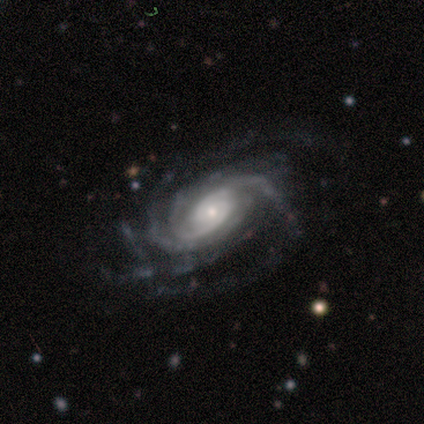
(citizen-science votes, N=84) Smooth or featured?
  - featured or disk: 98% *
  - smooth: 1%
  - star or artifact: 1%
Edge-on disk?
  - no: 95% *
  - yes: 5%
Bar?
  - no: 60% *
  - weak: 28%
  - strong: 12%
Spiral arms?
  - yes: 99% *
  - no: 1%
Spiral winding?
  - tight: 73% *
  - medium: 23%
  - loose: 4%
Spiral arm count?
  - more than 4: 26% *
  - can't tell: 21%
  - 2: 19%
  - 4: 19%
  - 3: 14%
  - 1: 0%
Bulge size?
  - small: 64% *
  - moderate: 32%
  - large: 4%
  - dominant: 0%
  - none: 0%
Merging?
  - none: 72% *
  - minor disturbance: 14%
  - major disturbance: 13%
  - merger: 0%